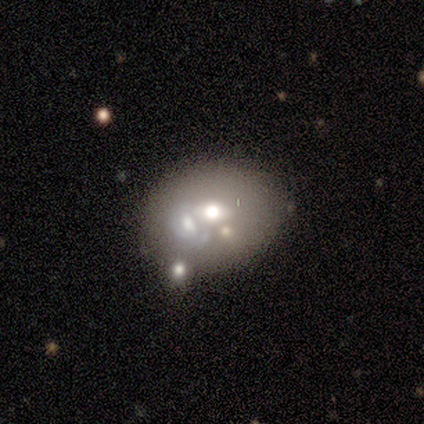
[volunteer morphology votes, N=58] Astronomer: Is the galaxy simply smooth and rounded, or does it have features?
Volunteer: featured or disk — 48% (runner-up: smooth, 43%).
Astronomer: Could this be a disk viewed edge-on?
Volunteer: no — 100%.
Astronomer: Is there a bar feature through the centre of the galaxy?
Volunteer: no — 75%.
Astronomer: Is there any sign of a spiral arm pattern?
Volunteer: no — 93%.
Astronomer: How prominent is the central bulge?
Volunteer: moderate — 64%.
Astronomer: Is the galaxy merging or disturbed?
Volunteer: none — 45% (runner-up: merger, 42%).